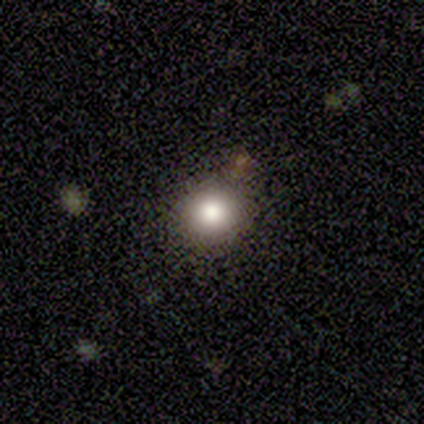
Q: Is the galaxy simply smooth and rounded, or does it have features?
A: smooth — 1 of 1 (100%).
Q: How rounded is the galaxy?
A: round — 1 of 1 (100%).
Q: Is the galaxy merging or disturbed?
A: major disturbance — 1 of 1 (100%).